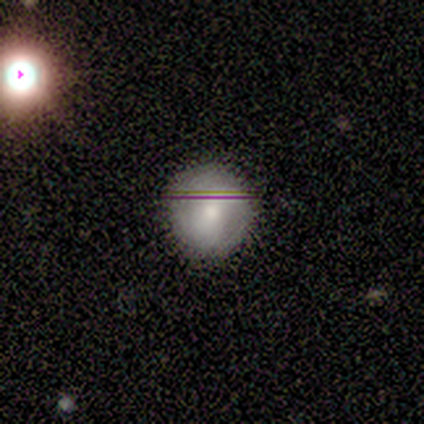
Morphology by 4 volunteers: type=smooth (75%); roundness=round (100%); merging=none (100%).